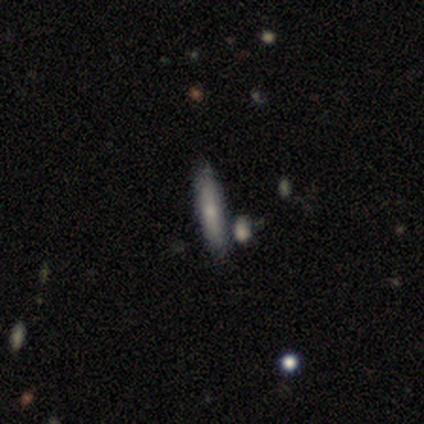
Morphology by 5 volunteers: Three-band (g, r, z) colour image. It shows a smooth galaxy with no disk features (80%) that is cigar-shaped (100%). Merging: none (80%).